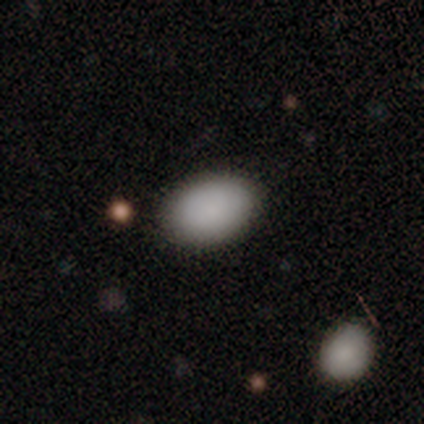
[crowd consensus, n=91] Overall: smooth (90%). How rounded: in between (90%). Merging: none (86%).